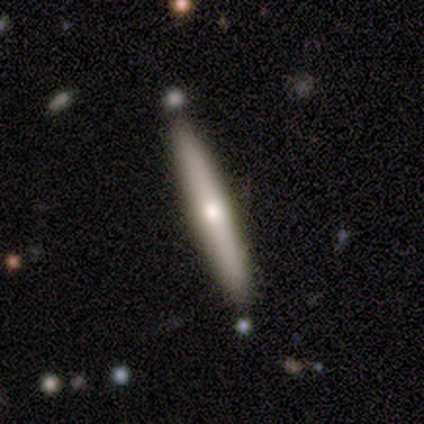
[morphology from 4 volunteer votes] type=smooth (50%, tied with featured or disk); roundness=cigar-shaped (100%); merging=none (75%).